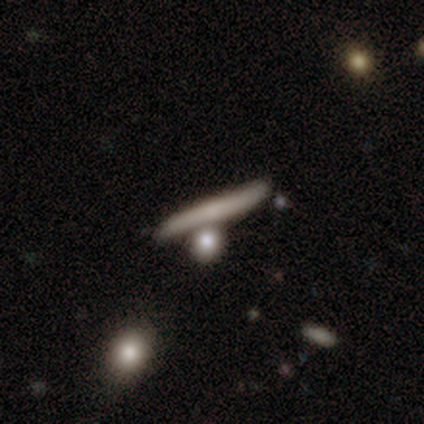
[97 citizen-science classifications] Overall: smooth (58%; featured or disk 35%). How rounded: cigar-shaped (91%). Merging: none (52%; merger 24%).